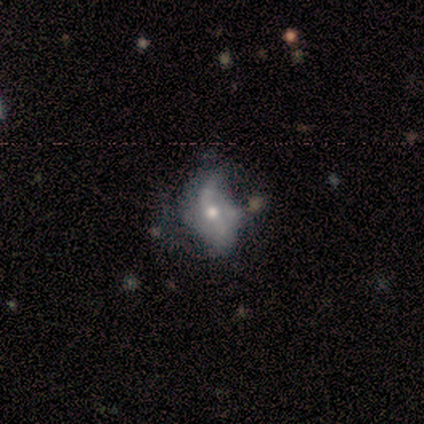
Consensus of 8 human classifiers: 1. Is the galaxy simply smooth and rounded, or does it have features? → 62% featured or disk, 25% smooth, 12% star or artifact.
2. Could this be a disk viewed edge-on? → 100% no, 0% yes.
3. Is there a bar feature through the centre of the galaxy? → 40% weak (tied), 40% no (tied), 20% strong.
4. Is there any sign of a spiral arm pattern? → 80% yes, 20% no.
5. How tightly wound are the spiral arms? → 75% loose, 25% tight, 0% medium.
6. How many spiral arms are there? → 50% 2, 25% 1, 25% 4, 0% 3, 0% more than 4, 0% can't tell.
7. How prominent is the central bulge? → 60% small, 40% moderate, 0% dominant, 0% large, 0% none.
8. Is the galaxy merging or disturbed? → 43% minor disturbance (tied), 43% major disturbance (tied), 14% none, 0% merger.